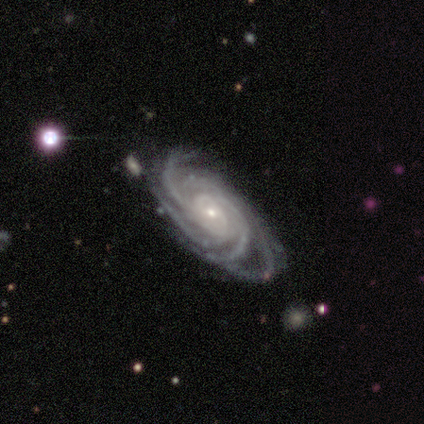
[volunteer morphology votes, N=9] smooth_or_featured: featured or disk (p=1.00)
disk_edge_on: no (p=1.00)
bar: no (p=0.78) [alt: weak p=0.22]
has_spiral_arms: yes (p=1.00)
spiral_winding: tight (p=0.67) [alt: medium p=0.33]
spiral_arm_count: more than 4 (p=0.67) [alt: 4 p=0.22]
bulge_size: small (p=0.89) [alt: moderate p=0.11]
merging: none (p=0.89) [alt: minor disturbance p=0.11]